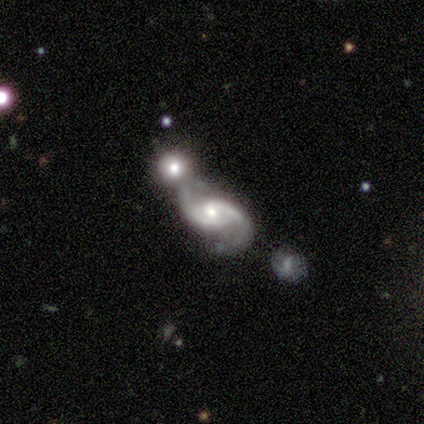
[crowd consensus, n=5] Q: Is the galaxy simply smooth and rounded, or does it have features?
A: featured or disk — 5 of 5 (100%).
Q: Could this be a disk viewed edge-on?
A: no — 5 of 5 (100%).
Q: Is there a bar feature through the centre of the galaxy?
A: no — 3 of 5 (60%).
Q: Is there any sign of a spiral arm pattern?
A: yes — 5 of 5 (100%).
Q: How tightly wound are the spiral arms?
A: tight — 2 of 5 (40%, tied with medium).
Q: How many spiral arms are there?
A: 2 — 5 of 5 (100%).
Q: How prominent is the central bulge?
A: small — 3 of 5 (60%).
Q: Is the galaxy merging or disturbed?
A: merger — 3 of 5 (60%).